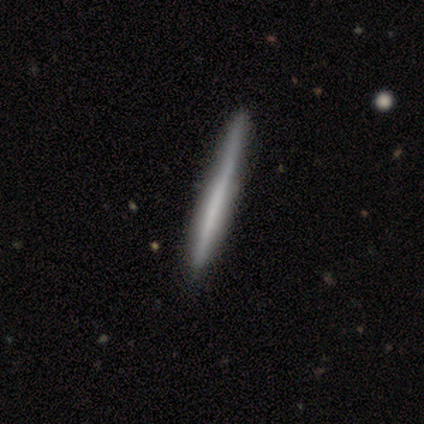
smooth 80%, featured or disk 20%, star or artifact 0%. Down the decision tree: how rounded — cigar-shaped (100%); merging — none (100%).